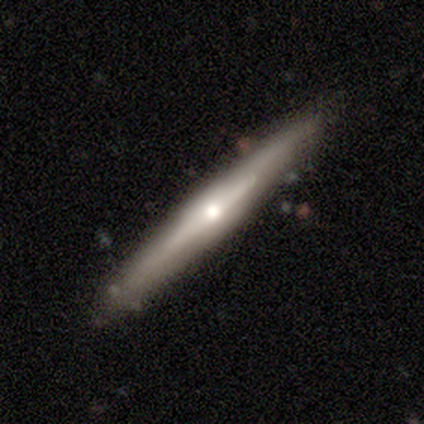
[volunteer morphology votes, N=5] Smooth or featured: smooth — 60% (featured or disk — 40%)
How rounded: cigar-shaped — 100%
Merging: none — 80% (major disturbance — 20%)